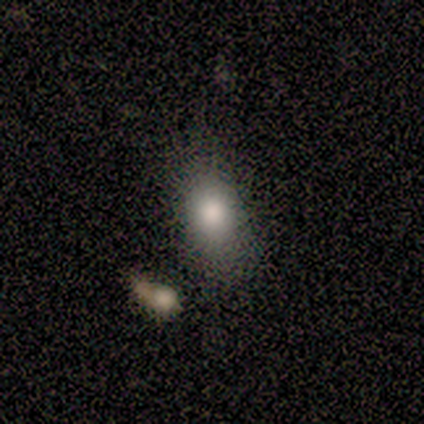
smooth 100%, featured or disk 0%, star or artifact 0%. Down the decision tree: how rounded — in between (60%); merging — none (40%, tied with minor disturbance).